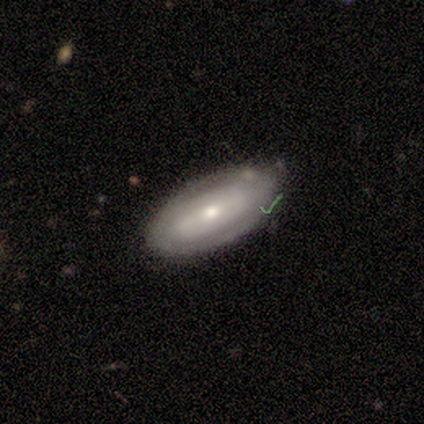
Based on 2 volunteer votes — Smooth or featured?
  - featured or disk: 100% *
  - smooth: 0%
  - star or artifact: 0%
Edge-on disk?
  - no: 100% *
  - yes: 0%
Bar?
  - strong: 50% * (tied)
  - weak: 50% * (tied)
  - no: 0%
Spiral arms?
  - yes: 50% * (tied)
  - no: 50% * (tied)
Spiral winding?
  - tight: 100% *
  - medium: 0%
  - loose: 0%
Spiral arm count?
  - 2: 100% *
  - 1: 0%
  - 3: 0%
  - 4: 0%
  - more than 4: 0%
  - can't tell: 0%
Bulge size?
  - large: 50% * (tied)
  - moderate: 50% * (tied)
  - dominant: 0%
  - small: 0%
  - none: 0%
Merging?
  - none: 100% *
  - minor disturbance: 0%
  - major disturbance: 0%
  - merger: 0%